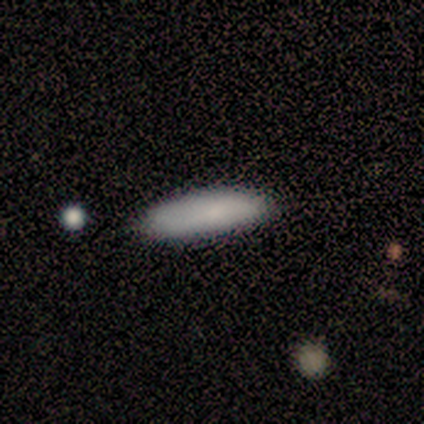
This is clearly a smooth galaxy (86%). How rounded: likely cigar-shaped (67%). Merging: clearly none (100%).